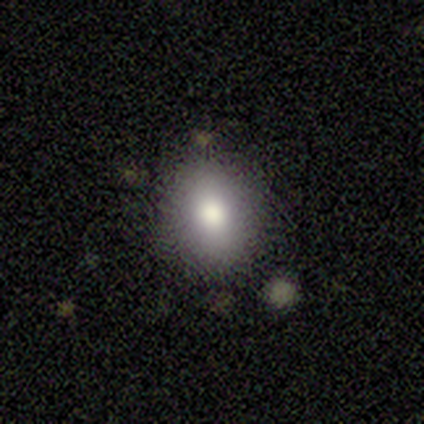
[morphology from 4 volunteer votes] Smooth or featured?
  - smooth: 75% *
  - star or artifact: 25%
  - featured or disk: 0%
How rounded?
  - in between: 67% *
  - round: 33%
  - cigar-shaped: 0%
Merging?
  - none: 100% *
  - minor disturbance: 0%
  - major disturbance: 0%
  - merger: 0%